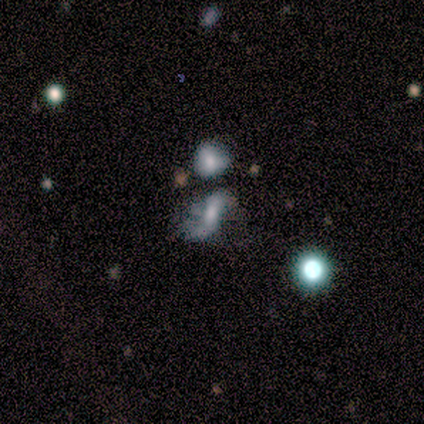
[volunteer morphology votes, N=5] A smooth galaxy with no disk features (60%) that is in between round and cigar-shaped (100%). Merging: minor disturbance (40%, tied with merger).